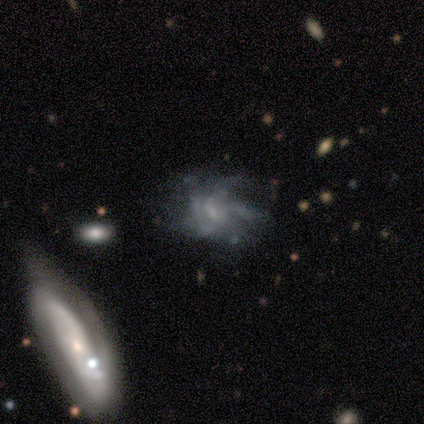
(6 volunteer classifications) This appears to be a featured or disk galaxy (50%) with no bar (67%), more than 4 (50%, tied with can't tell) medium (100%) spiral arms (67%) and a small central bulge (100%). Merging: none (60%).